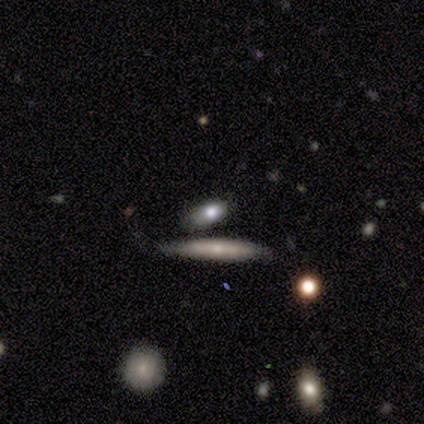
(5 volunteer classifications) smooth 80%, featured or disk 20%, star or artifact 0%. Down the decision tree: how rounded — in between (50%, tied with cigar-shaped); merging — none (60%).